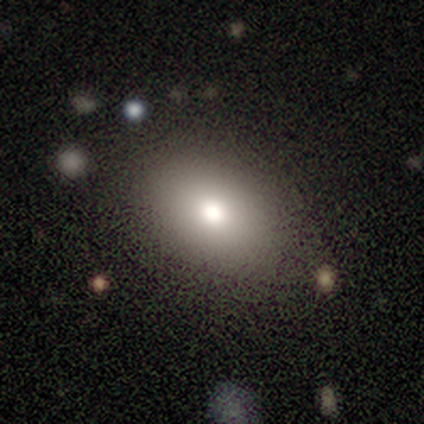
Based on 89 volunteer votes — Smooth or featured? 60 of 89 (67%) said smooth. How rounded? 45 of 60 (75%) said in between. Merging? 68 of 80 (85%) said none.